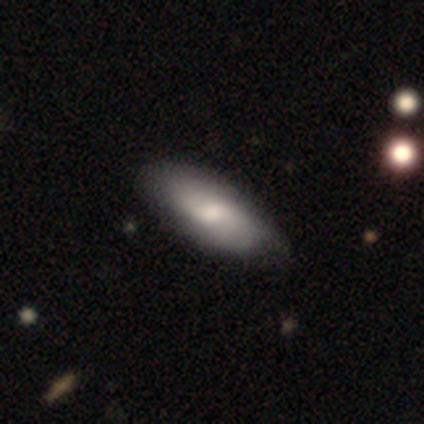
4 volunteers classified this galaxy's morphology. smooth 50% (tied), featured or disk 50% (tied), star or artifact 0%. Down the decision tree: how rounded — in between (100%); merging — none (75%).